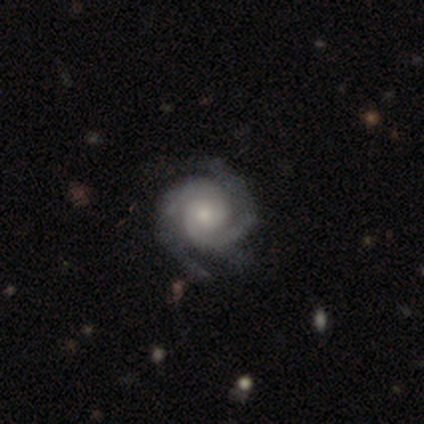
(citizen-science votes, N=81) featured or disk 91%, star or artifact 5%, smooth 4%. Down the decision tree: edge-on disk — no (99%); bar — no (77%); spiral arms — yes (100%); spiral arm count — 2 (71%); spiral winding — tight (78%); bulge size — moderate (49%); merging — none (42%).